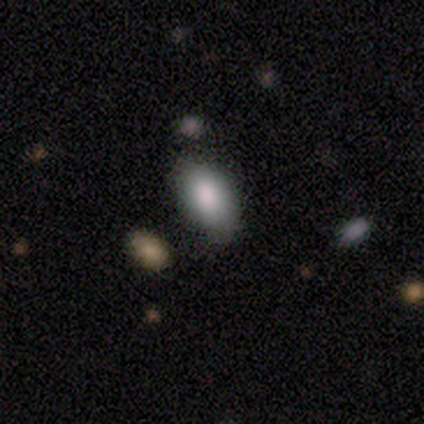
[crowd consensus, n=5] This is clearly a smooth galaxy (100%). How rounded: clearly in between (100%). Merging: marginally none (40%, tied with minor disturbance).